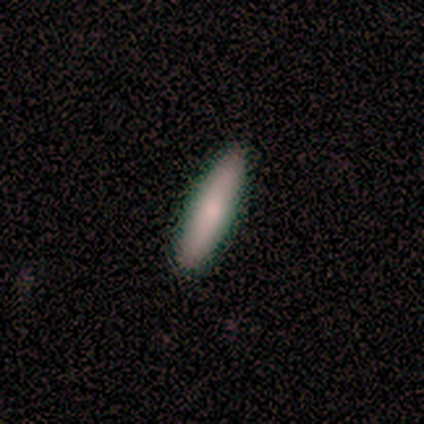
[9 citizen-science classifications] smooth 56%, featured or disk 44%, star or artifact 0%. Down the decision tree: how rounded — cigar-shaped (80%); merging — none (100%).